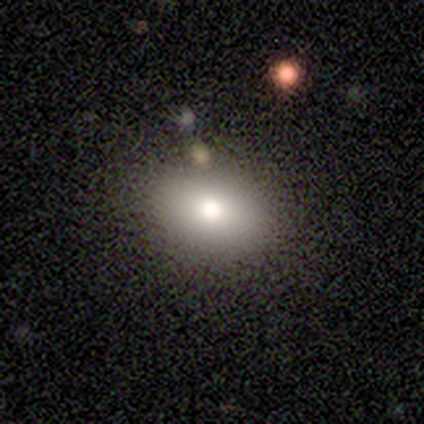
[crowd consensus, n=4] This is clearly a smooth galaxy (100%). How rounded: clearly in between (100%). Merging: possibly none (50%).